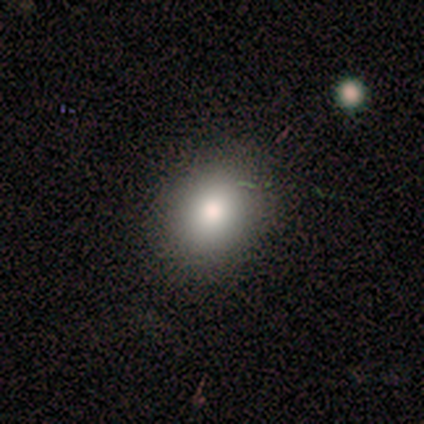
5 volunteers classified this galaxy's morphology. A smooth galaxy with no disk features (80%) that is in between round and cigar-shaped (75%).

Vote fractions:
- Smooth or featured? smooth: 80% / star or artifact: 20% / featured or disk: 0%
- How rounded? in between: 75% / round: 25% / cigar-shaped: 0%
- Merging? none: 75% / minor disturbance: 25% / major disturbance: 0% / merger: 0%